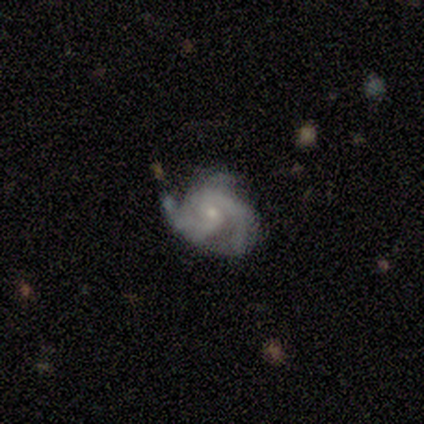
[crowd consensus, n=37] Smooth or featured?
  - featured or disk: 84% *
  - smooth: 11%
  - star or artifact: 5%
Edge-on disk?
  - no: 97% *
  - yes: 3%
Bar?
  - no: 77% *
  - weak: 20%
  - strong: 3%
Spiral arms?
  - yes: 97% *
  - no: 3%
Spiral winding?
  - medium: 45% *
  - tight: 41%
  - loose: 14%
Spiral arm count?
  - 2: 59% *
  - 3: 24%
  - can't tell: 10%
  - 1: 7%
  - 4: 0%
  - more than 4: 0%
Bulge size?
  - small: 57% *
  - moderate: 30%
  - none: 13%
  - dominant: 0%
  - large: 0%
Merging?
  - none: 49% *
  - minor disturbance: 40%
  - major disturbance: 11%
  - merger: 0%